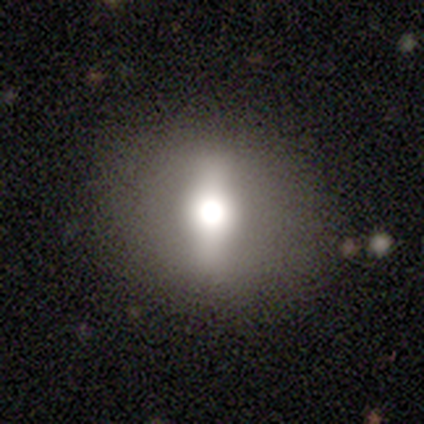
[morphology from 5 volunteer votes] Q: Smooth or featured?
A: smooth (60%); runner-up: featured or disk (40%)
Q: How rounded?
A: round (67%); runner-up: in between (33%)
Q: Merging?
A: none (100%)